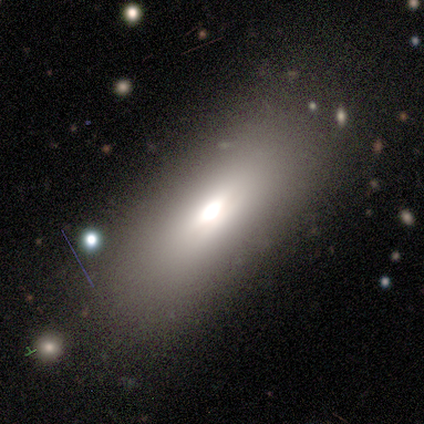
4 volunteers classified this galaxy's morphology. Q: Smooth or featured?
A: smooth (75%); runner-up: featured or disk (25%)
Q: How rounded?
A: in between (100%)
Q: Merging?
A: none (75%); runner-up: minor disturbance (25%)